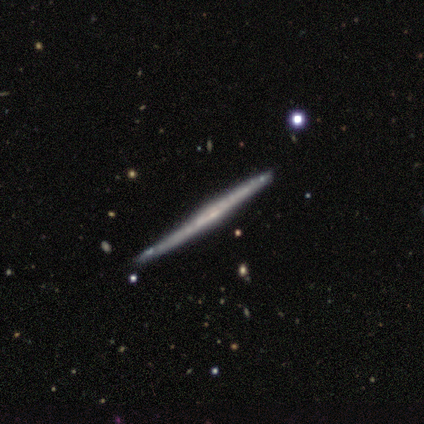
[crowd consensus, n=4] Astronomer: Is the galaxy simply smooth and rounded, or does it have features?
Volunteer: featured or disk — 100%.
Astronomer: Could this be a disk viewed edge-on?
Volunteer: yes — 100%.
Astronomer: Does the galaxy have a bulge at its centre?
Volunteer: none — 75%.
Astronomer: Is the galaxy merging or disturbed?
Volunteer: minor disturbance — 75%.